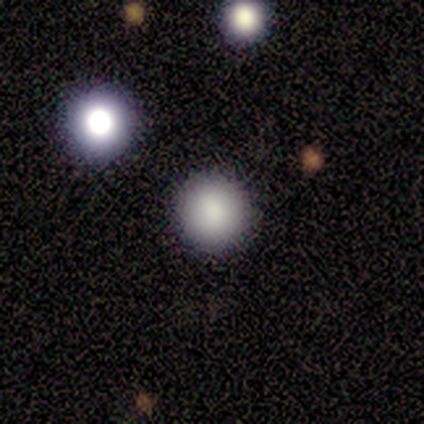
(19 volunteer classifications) smooth_or_featured: smooth (p=0.68) [alt: star or artifact p=0.21]
how_rounded: round (p=0.92) [alt: in between p=0.08]
merging: none (p=0.87) [alt: minor disturbance p=0.07]